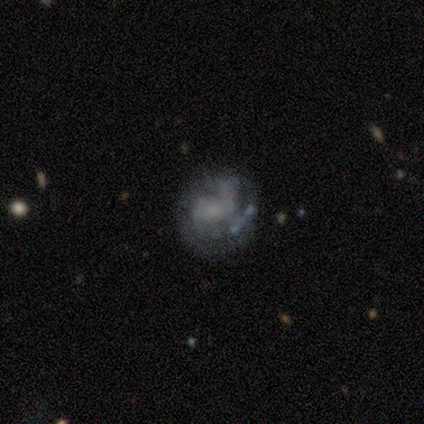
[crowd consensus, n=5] A featured or disk galaxy (60%) with a weak bar (50%, tied with no), no spiral arms (100%) and a moderate central bulge (50%, tied with small).

Vote fractions:
- Smooth or featured? featured or disk: 60% / smooth: 40% / star or artifact: 0%
- Edge-on disk? no: 67% / yes: 33%
- Bar? weak: 50% (tied) / no: 50% (tied) / strong: 0%
- Spiral arms? no: 100% / yes: 0%
- Bulge size? moderate: 50% (tied) / small: 50% (tied) / dominant: 0% / large: 0% / none: 0%
- Merging? minor disturbance: 80% / major disturbance: 20% / none: 0% / merger: 0%